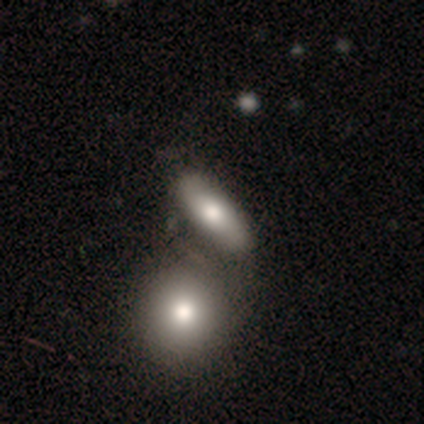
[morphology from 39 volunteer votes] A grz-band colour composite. It shows a smooth galaxy with no disk features (67%) that is in between round and cigar-shaped (73%). Merging: merger (47%).